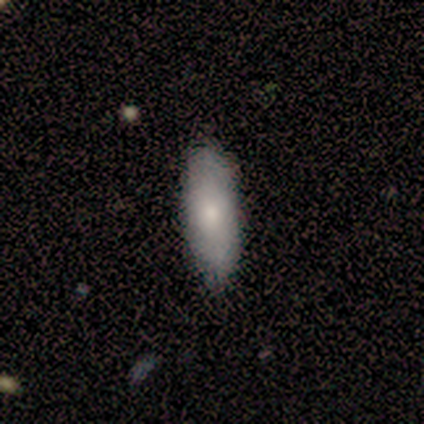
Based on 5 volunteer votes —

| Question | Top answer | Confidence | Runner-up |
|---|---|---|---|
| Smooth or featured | smooth | 60% | featured or disk (40%) |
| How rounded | cigar-shaped | 67% | in between (33%) |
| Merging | none | 100% | — |